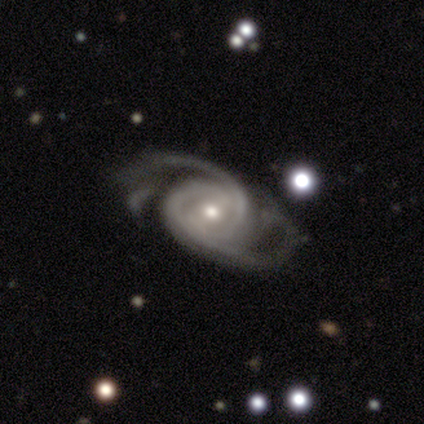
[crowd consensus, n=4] Morphology: type=featured or disk (100%); edge-on=no (100%); bar=strong (50%); spiral arms=yes (100%); winding=medium (75%); arm count=2 (75%); bulge=moderate (75%); merging=none (50%, tied with major disturbance).